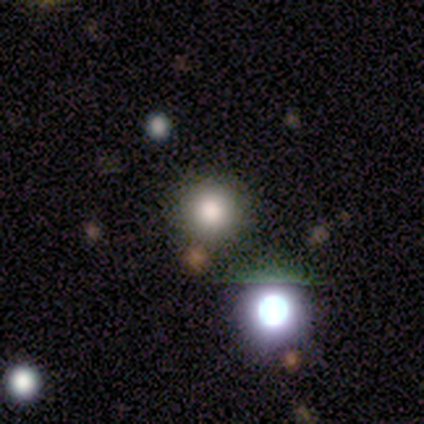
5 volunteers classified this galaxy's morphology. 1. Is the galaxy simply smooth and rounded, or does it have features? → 80% smooth, 20% featured or disk, 0% star or artifact.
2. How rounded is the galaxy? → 100% round, 0% in between, 0% cigar-shaped.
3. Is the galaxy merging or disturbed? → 100% none, 0% minor disturbance, 0% major disturbance, 0% merger.